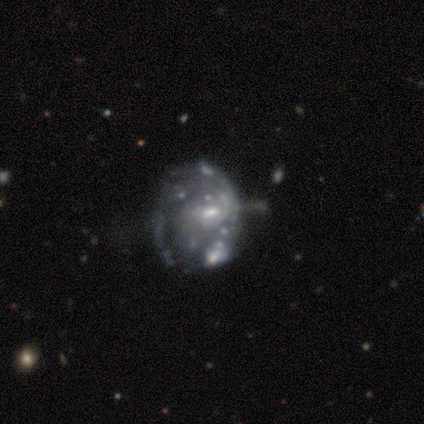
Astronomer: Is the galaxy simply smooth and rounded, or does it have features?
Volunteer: featured or disk — 94%.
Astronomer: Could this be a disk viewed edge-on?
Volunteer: no — 100%.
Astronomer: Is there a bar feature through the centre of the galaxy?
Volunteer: no — 56% (runner-up: weak, 35%).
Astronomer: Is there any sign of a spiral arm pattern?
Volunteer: yes — 53% (runner-up: no, 47%).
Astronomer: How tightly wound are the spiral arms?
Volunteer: tight — 72%.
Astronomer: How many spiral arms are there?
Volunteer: can't tell — 78%.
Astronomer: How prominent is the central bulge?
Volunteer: small — 71%.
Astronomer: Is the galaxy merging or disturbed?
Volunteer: major disturbance — 28% (runner-up: minor disturbance, 19%).